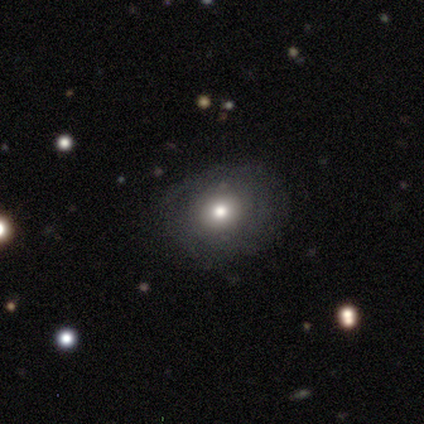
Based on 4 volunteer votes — smooth_or_featured: smooth (p=0.50) [tied with: featured or disk p=0.50]
how_rounded: round (p=1.00)
merging: none (p=1.00)